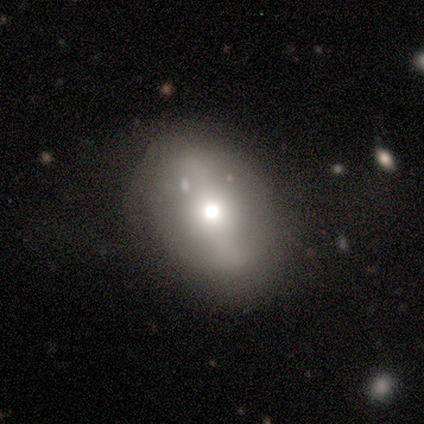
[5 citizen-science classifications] smooth_or_featured: smooth (p=0.60) [alt: featured or disk p=0.40]
how_rounded: in between (p=1.00)
merging: none (p=0.60) [alt: minor disturbance p=0.40]